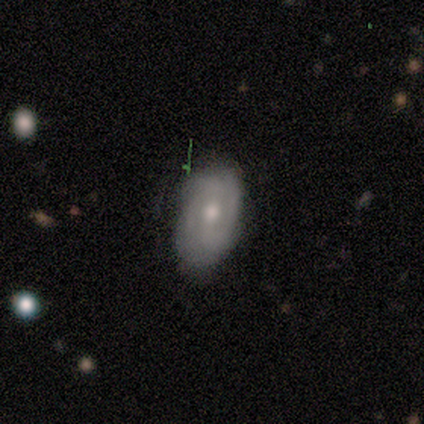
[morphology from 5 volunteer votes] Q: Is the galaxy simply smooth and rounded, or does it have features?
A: featured or disk — 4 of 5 (80%).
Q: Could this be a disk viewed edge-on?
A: no — 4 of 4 (100%).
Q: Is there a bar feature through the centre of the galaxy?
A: weak — 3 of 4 (75%).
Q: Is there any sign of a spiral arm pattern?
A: yes — 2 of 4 (50%, tied with no).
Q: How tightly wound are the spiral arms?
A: medium — 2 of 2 (100%).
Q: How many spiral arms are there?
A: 2 — 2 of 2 (100%).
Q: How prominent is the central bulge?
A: small — 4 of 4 (100%).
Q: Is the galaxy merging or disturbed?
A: none — 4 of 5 (80%).